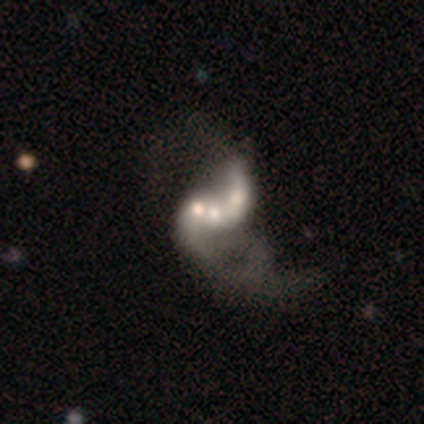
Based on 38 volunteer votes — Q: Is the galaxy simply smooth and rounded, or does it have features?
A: featured or disk — 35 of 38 (92%).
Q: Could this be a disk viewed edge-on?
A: no — 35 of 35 (100%).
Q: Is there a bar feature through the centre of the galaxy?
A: no — 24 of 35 (69%).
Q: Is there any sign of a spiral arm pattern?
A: yes — 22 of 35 (63%).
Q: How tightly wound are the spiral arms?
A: loose — 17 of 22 (77%).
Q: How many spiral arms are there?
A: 2 — 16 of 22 (73%).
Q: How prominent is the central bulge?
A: moderate — 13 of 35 (37%).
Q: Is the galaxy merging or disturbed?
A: merger — 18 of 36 (50%).